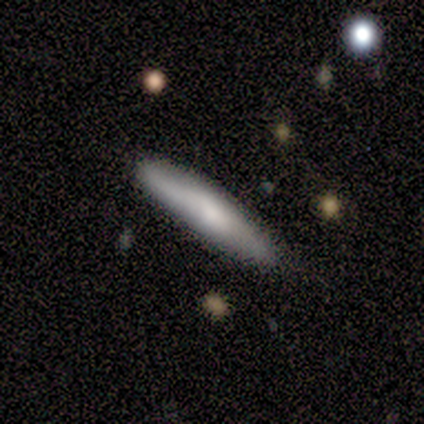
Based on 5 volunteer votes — Volunteers were most divided on "merging": none: 60%, minor disturbance: 40%, major disturbance: 0%, merger: 0%. More confident: smooth or featured — smooth (100%); how rounded — cigar-shaped (100%).